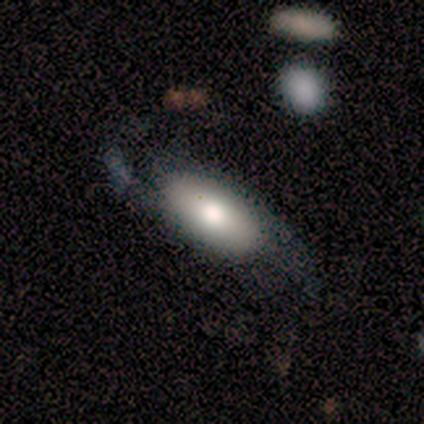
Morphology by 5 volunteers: smooth-or-featured: featured or disk: 60% | smooth: 40% | star or artifact: 0%
  disk-edge-on: no: 67% | yes: 33%
    bar: no: 100% | strong: 0% | weak: 0%
    has-spiral-arms: yes: 100% | no: 0%
      spiral-winding: loose: 100% | tight: 0% | medium: 0%
      spiral-arm-count: 2: 100% | 1: 0% | 3: 0% | 4: 0% | more than 4: 0% | can't tell: 0%
    bulge-size: moderate: 100% | dominant: 0% | large: 0% | small: 0% | none: 0%
  merging: minor disturbance: 60% | major disturbance: 20% | merger: 20% | none: 0%